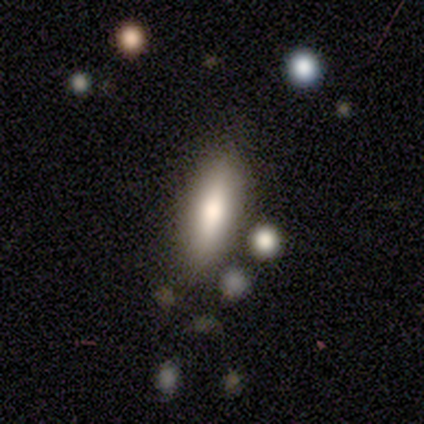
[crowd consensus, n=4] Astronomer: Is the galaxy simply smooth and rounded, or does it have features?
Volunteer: smooth — 100%.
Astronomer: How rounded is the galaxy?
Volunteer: in between — 50%, tied with cigar-shaped at 50%.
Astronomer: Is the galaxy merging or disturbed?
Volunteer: none — 100%.